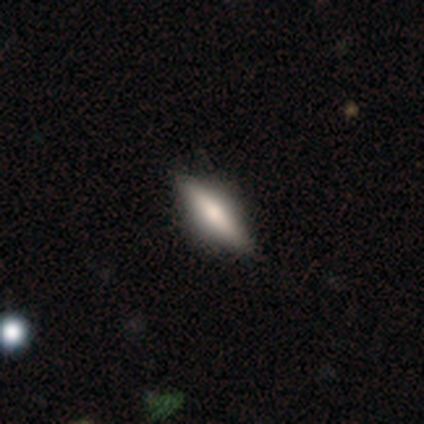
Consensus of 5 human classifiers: Smooth or featured: smooth — 80% (featured or disk — 20%)
How rounded: cigar-shaped — 100%
Merging: none — 100%